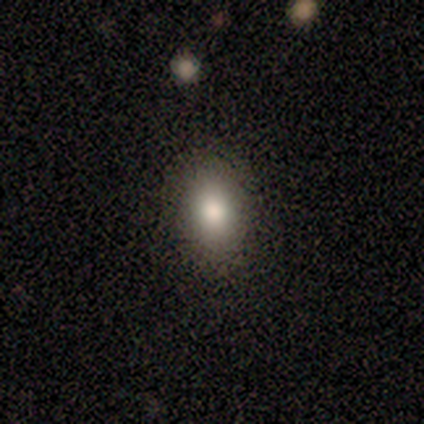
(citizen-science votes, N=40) Volunteers were most divided on "how rounded": in between: 74%, round: 26%, cigar-shaped: 0%. More confident: smooth or featured — smooth (88%); merging — none (65%).